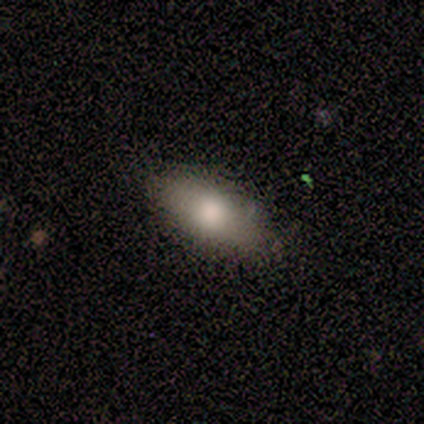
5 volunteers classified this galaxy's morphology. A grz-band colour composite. It shows a smooth galaxy with no disk features (60%) that is in between round and cigar-shaped (100%). Merging: none (100%).